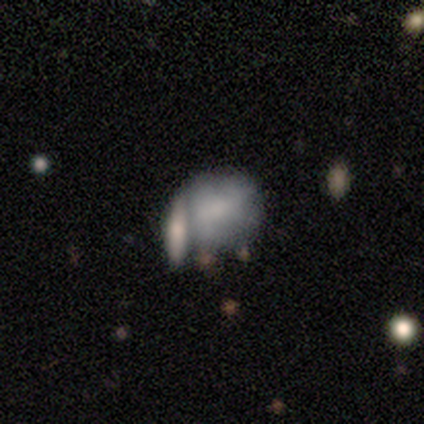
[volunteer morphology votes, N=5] smooth_or_featured: featured or disk (p=0.60) [alt: smooth p=0.20]
disk_edge_on: no (p=1.00)
bar: no (p=1.00)
has_spiral_arms: no (p=1.00)
bulge_size: moderate (p=0.33) [tied with: small p=0.33, none p=0.33]
merging: minor disturbance (p=0.50) [tied with: merger p=0.50]